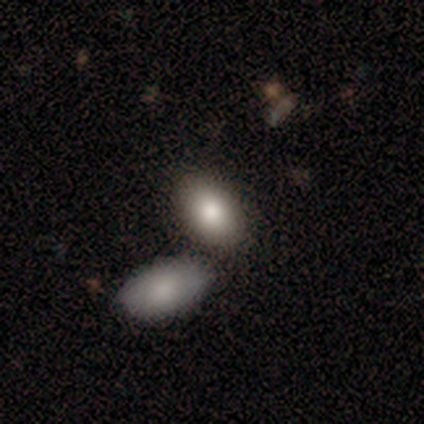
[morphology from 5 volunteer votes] Q: Smooth or featured?
A: smooth (40%); tied with: featured or disk (40%)
Q: How rounded?
A: in between (100%)
Q: Merging?
A: merger (75%); runner-up: none (25%)